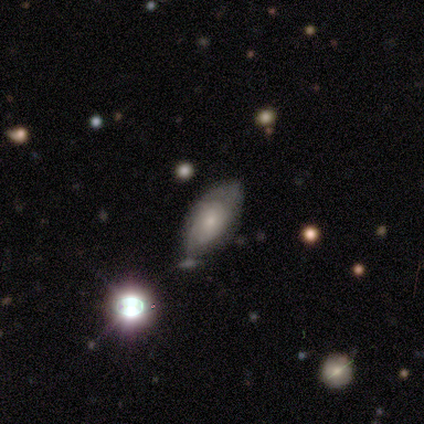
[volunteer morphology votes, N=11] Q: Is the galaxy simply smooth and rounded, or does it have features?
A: featured or disk — 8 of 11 (73%).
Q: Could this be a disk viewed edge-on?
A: no — 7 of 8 (88%).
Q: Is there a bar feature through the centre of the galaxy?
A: no — 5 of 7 (71%).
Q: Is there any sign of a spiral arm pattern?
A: yes — 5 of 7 (71%).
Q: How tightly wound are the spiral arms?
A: medium — 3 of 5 (60%).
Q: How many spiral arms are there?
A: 2 — 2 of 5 (40%, tied with can't tell).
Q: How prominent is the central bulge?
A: small — 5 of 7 (71%).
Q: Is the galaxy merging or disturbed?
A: none — 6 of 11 (55%).